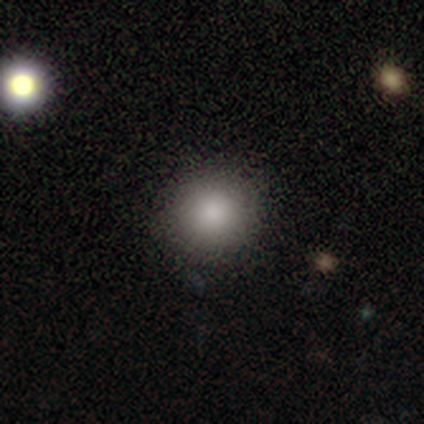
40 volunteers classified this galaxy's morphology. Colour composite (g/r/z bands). It shows a smooth galaxy with no disk features (80%) that is round (97%). Merging: none (94%).